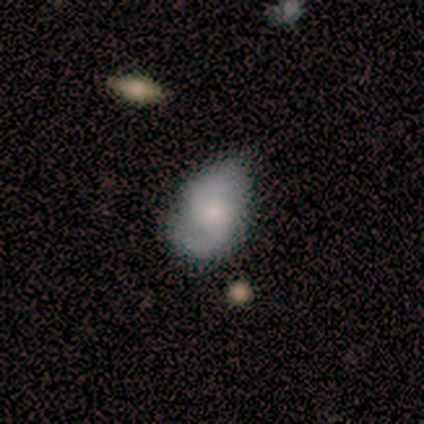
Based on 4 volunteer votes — Volunteers were most divided on "bulge size" (3-way tie): large: 33%, moderate: 33%, none: 33%, dominant: 0%, small: 0%. More confident: edge-on disk — no (100%); bar — no (100%); spiral arms — yes (100%); spiral winding — medium (100%); spiral arm count — 2 (100%); smooth or featured — featured or disk (75%); merging — minor disturbance (75%).